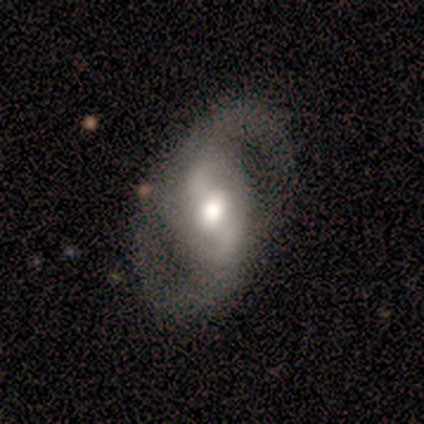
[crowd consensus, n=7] Q: Smooth or featured?
A: featured or disk (100%)
Q: Edge-on disk?
A: no (100%)
Q: Bar?
A: strong (57%); runner-up: weak (43%)
Q: Spiral arms?
A: yes (100%)
Q: Spiral winding?
A: loose (57%); runner-up: medium (43%)
Q: Spiral arm count?
A: 2 (86%); runner-up: 1 (14%)
Q: Bulge size?
A: moderate (71%); runner-up: large (29%)
Q: Merging?
A: none (57%); runner-up: minor disturbance (43%)